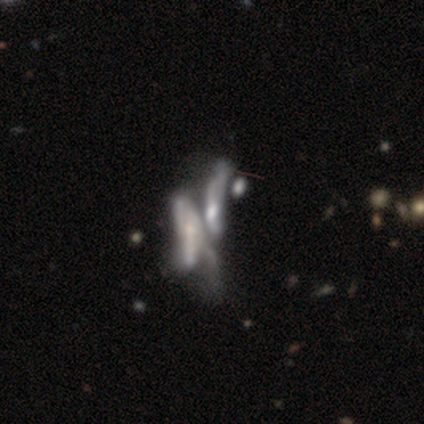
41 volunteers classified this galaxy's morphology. Smooth or featured? 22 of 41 (54%) said featured or disk. Edge-on disk? 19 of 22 (86%) said no. Bar? 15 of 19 (79%) said no. Spiral arms? 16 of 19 (84%) said no. Bulge size? 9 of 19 (47%) said small. Merging? 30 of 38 (79%) said merger.